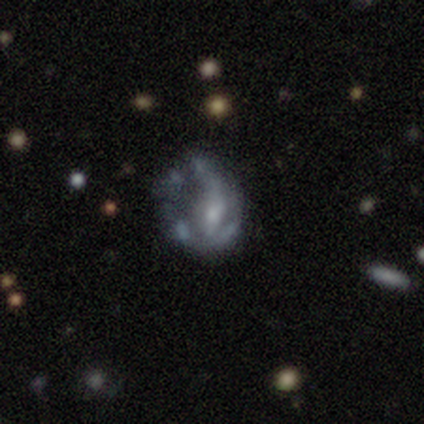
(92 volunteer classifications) Smooth or featured: featured or disk — 70% (smooth — 18%)
Edge-on disk: no — 97% (yes — 3%)
Bar: no — 68% (weak — 26%)
Spiral arms: no — 61% (yes — 39%)
Bulge size: small — 55% (none — 21%)
Merging: major disturbance — 37% (none — 33%)